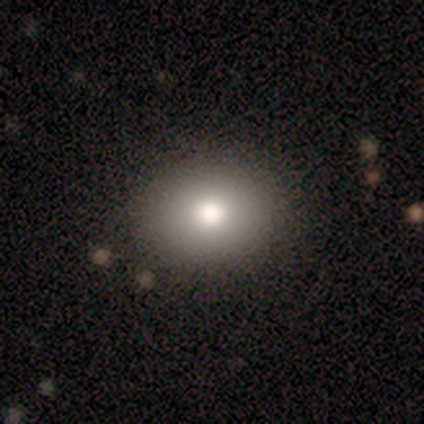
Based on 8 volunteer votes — This appears to be a smooth galaxy with no disk features (88%) that is in between round and cigar-shaped (57%). Merging: none (100%).